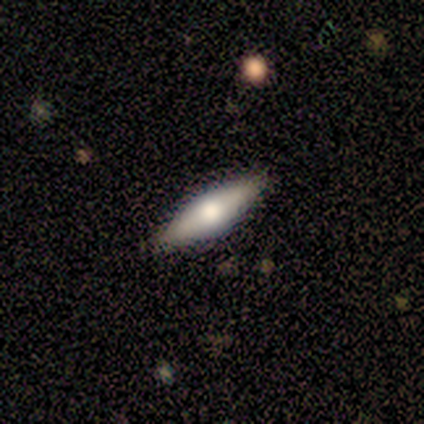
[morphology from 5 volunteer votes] smooth_or_featured: featured or disk (p=0.60) [alt: smooth p=0.40]
disk_edge_on: yes (p=1.00)
edge_on_bulge: rounded (p=1.00)
merging: none (p=1.00)